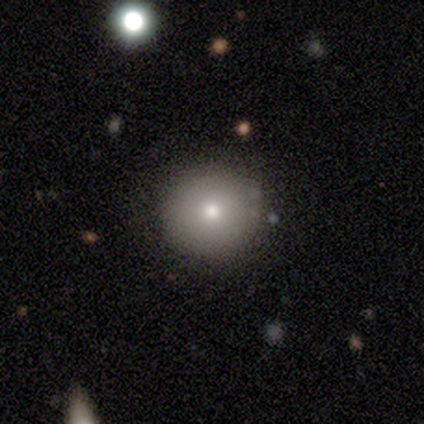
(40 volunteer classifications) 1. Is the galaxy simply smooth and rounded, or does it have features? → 80% smooth, 10% featured or disk, 10% star or artifact.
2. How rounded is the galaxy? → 97% round, 3% in between, 0% cigar-shaped.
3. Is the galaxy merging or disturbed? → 78% none, 11% minor disturbance, 6% major disturbance, 6% merger.